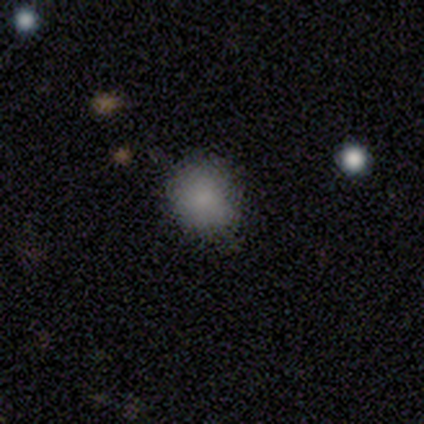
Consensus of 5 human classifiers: Smooth or featured: smooth — 60% (star or artifact — 40%)
How rounded: in between — 67% (round — 33%)
Merging: none — 100%